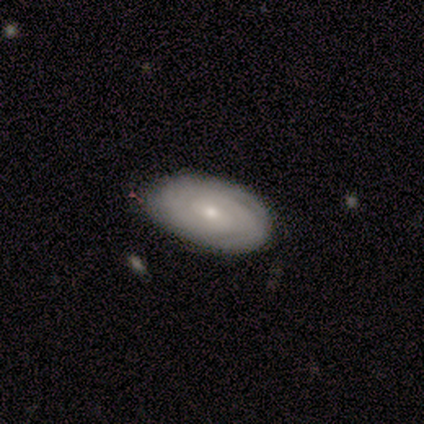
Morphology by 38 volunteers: This is clearly a featured or disk galaxy (84%). It is clearly not viewed edge-on (100%). Bar: possibly no (53%). Spiral arm pattern: clearly yes (81%). Spiral arm count: possibly can't tell (50%). Spiral winding: clearly tight (85%). Central bulge: likely small (72%). Merging: likely none (76%).